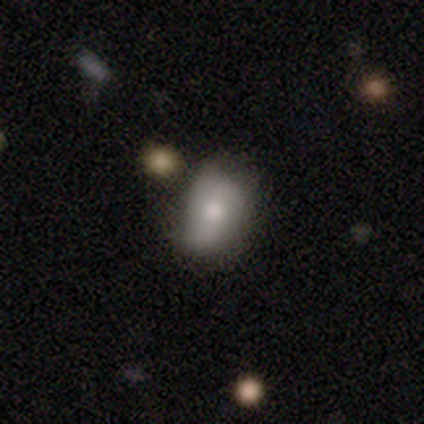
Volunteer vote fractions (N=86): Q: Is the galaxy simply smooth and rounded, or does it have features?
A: smooth — 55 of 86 (64%).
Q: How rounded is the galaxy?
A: in between — 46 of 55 (84%).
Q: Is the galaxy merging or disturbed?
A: none — 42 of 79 (53%).